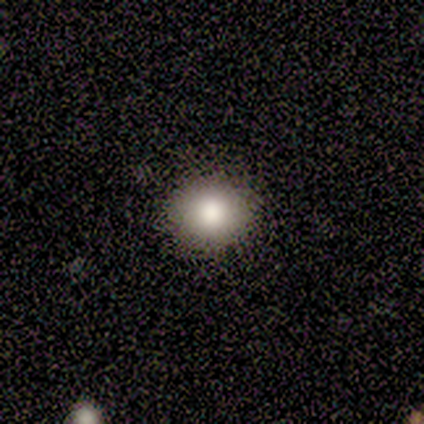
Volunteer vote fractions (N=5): Smooth or featured?
  - smooth: 80% *
  - featured or disk: 20%
  - star or artifact: 0%
How rounded?
  - round: 100% *
  - in between: 0%
  - cigar-shaped: 0%
Merging?
  - none: 100% *
  - minor disturbance: 0%
  - major disturbance: 0%
  - merger: 0%